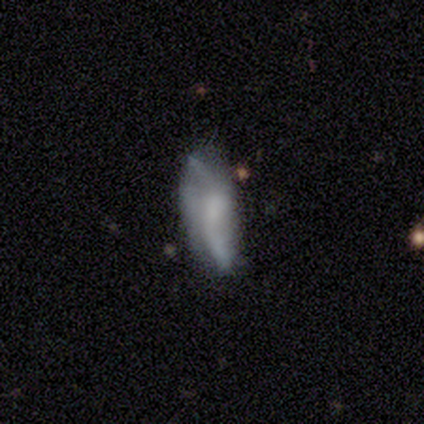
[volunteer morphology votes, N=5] This is clearly a featured or disk galaxy (80%). It is clearly not viewed edge-on (100%). Bar: likely weak (75%). Spiral arm pattern: clearly yes (100%). Spiral arm count: clearly 2 (100%). Spiral winding: clearly loose (100%). Central bulge: likely small (75%). Merging: clearly none (80%).